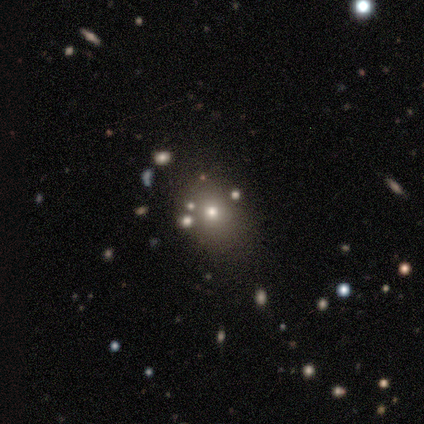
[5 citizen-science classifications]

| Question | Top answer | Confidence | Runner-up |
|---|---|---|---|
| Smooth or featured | smooth | 60% | star or artifact (40%) |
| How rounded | round | 67% | in between (33%) |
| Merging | none | 100% | — |